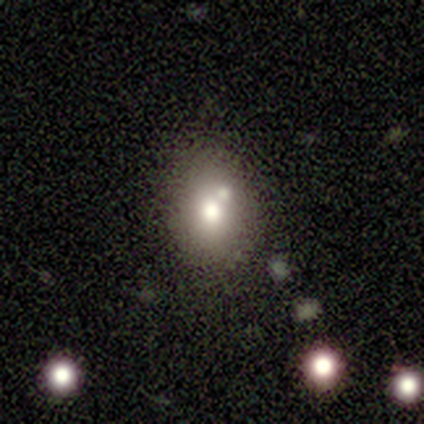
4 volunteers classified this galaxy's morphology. Smooth or featured? 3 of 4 (75%) said smooth. How rounded? 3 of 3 (100%) said in between. Merging? 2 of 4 (50%) said minor disturbance.